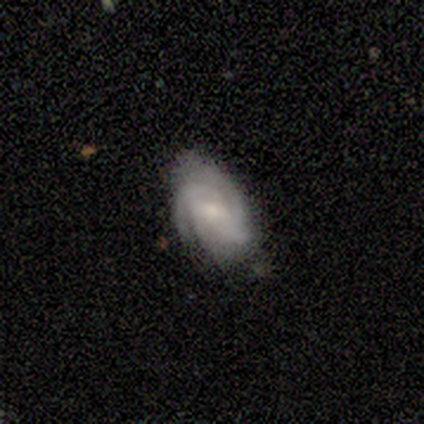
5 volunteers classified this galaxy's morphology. Overall: smooth (60%; featured or disk 40%). How rounded: in between (100%). Merging: minor disturbance (60%; none 40%).